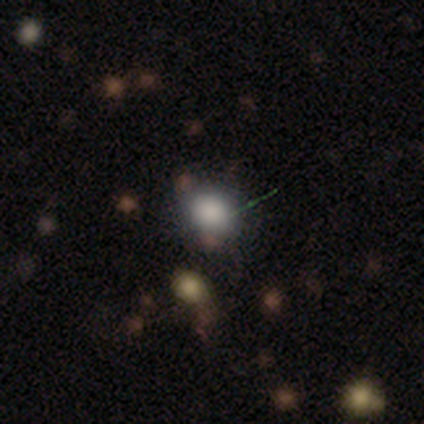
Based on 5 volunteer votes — Volunteers were most divided on "how rounded": round: 60%, in between: 40%, cigar-shaped: 0%. More confident: smooth or featured — smooth (100%); merging — none (100%).